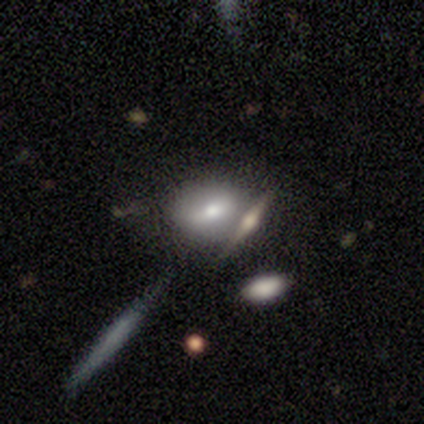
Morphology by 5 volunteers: A smooth galaxy with no disk features (80%) that is round (50%, tied with in between). Merging: minor disturbance (40%, tied with merger).